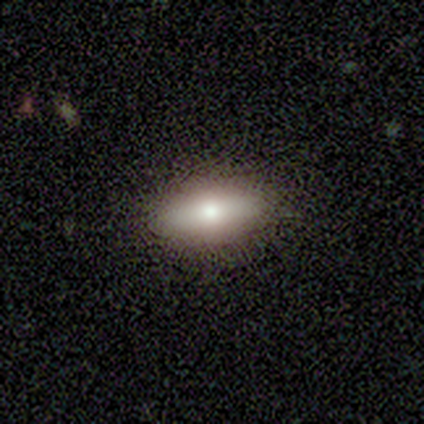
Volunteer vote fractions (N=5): Volunteers were most divided on "how rounded": in between: 75%, cigar-shaped: 25%, round: 0%. More confident: merging — none (100%); smooth or featured — smooth (80%).